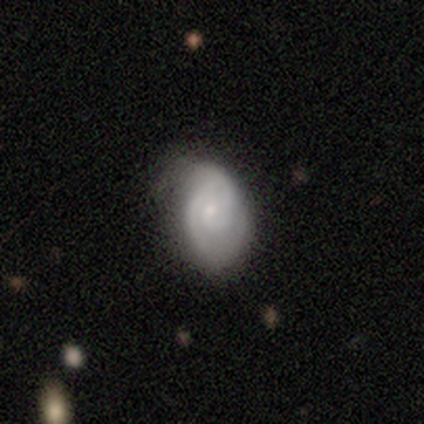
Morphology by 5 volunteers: A featured or disk galaxy (100%) with a weak bar (60%), 2 (60%) tight (80%) spiral arms (100%) and a small central bulge (60%). Merging: none (80%).